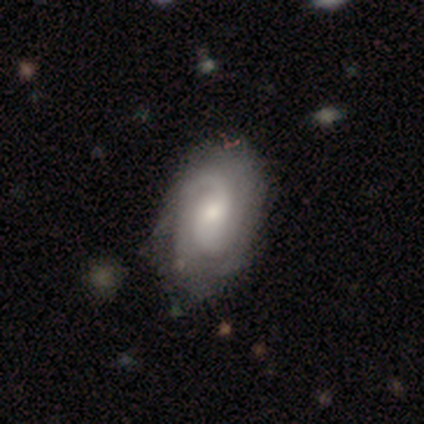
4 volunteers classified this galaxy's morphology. This is likely a featured or disk galaxy (75%). It is clearly not viewed edge-on (100%). Bar: clearly no (100%). Spiral arm pattern: clearly yes (100%). Spiral arm count: marginally 2 (33%, tied with 3 and can't tell). Spiral winding: clearly tight (100%). Central bulge: clearly moderate (100%). Merging: likely none (67%).